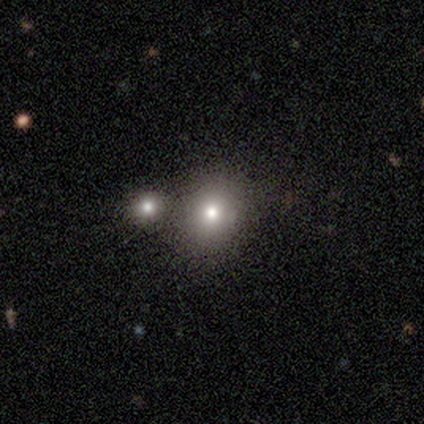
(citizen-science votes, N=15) Morphology: type=smooth (73%); roundness=round (82%); merging=none (62%).